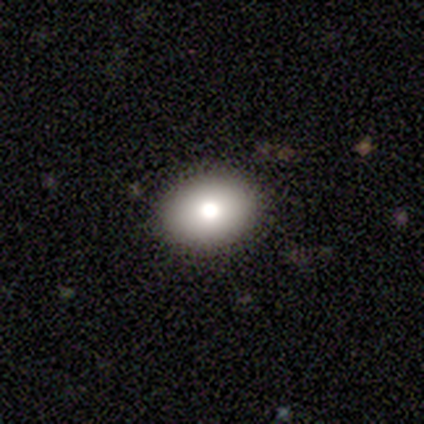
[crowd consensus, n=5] Morphology: type=featured or disk (80%); edge-on=yes (50%, tied with no); edge-on bulge=none (50%, tied with rounded); merging=none (100%).